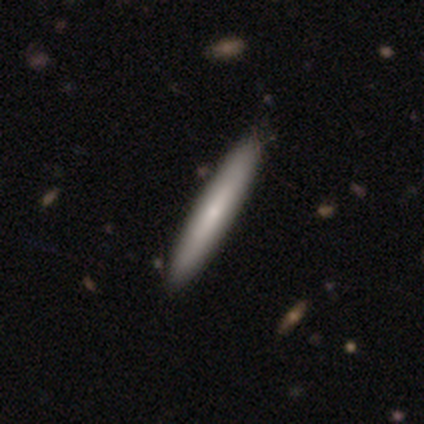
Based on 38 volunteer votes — Smooth or featured? 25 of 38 (66%) said smooth. How rounded? 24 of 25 (96%) said cigar-shaped. Merging? 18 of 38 (47%) said none.